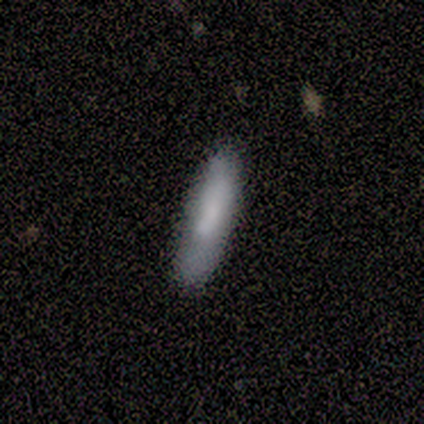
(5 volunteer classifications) Q: Smooth or featured?
A: smooth (80%); runner-up: featured or disk (20%)
Q: How rounded?
A: in between (50%); tied with: cigar-shaped (50%)
Q: Merging?
A: none (60%); runner-up: minor disturbance (40%)